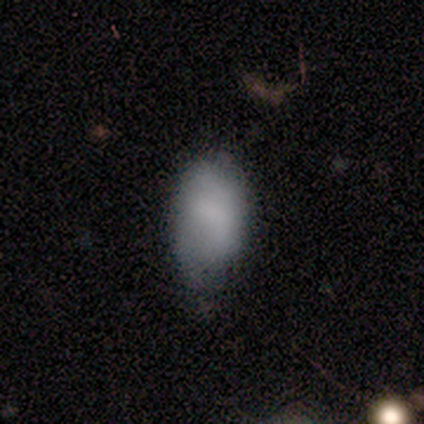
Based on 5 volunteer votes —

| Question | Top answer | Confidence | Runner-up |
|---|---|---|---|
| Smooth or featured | smooth | 80% | star or artifact (20%) |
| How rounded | in between | 75% | round (25%) |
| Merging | minor disturbance | 75% | none (25%) |